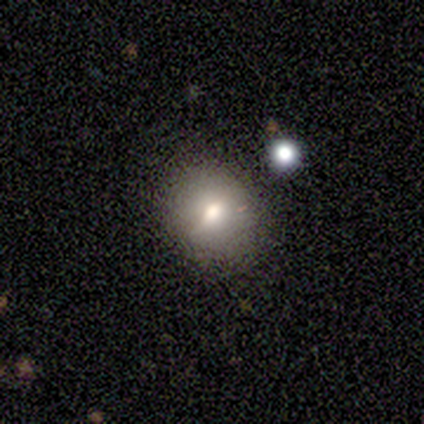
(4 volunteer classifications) Q: Smooth or featured?
A: featured or disk (50%); runner-up: smooth (25%)
Q: Edge-on disk?
A: no (100%)
Q: Bar?
A: strong (50%); tied with: weak (50%)
Q: Spiral arms?
A: no (100%)
Q: Bulge size?
A: large (50%); tied with: moderate (50%)
Q: Merging?
A: none (100%)